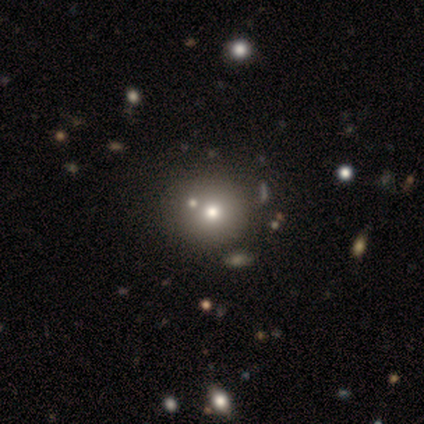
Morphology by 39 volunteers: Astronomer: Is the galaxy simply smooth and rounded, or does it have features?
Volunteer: smooth — 74%.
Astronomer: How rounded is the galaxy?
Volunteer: round — 97%.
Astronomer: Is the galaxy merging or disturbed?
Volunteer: none — 61%.